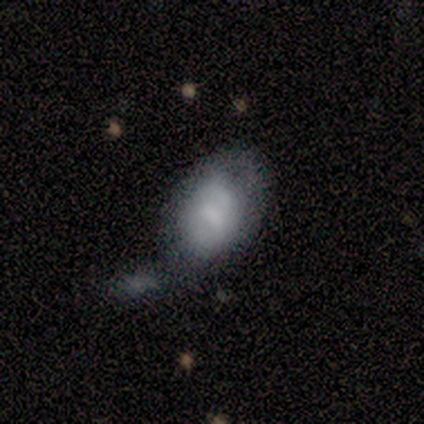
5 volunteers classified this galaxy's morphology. Volunteers were most divided on "bulge size": small: 50%, large: 25%, moderate: 25%, dominant: 0%, none: 0%. More confident: edge-on disk — no (100%); smooth or featured — featured or disk (80%); bar — weak (75%); spiral arms — no (75%); merging — none (75%).